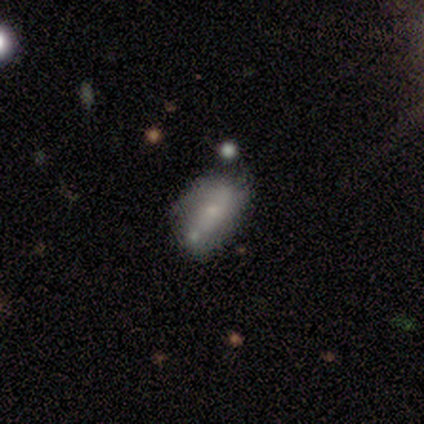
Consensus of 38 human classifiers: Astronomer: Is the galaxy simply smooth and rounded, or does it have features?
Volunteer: featured or disk — 47% (runner-up: smooth, 45%).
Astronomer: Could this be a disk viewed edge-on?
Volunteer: no — 89%.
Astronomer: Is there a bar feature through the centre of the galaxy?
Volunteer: no — 94%.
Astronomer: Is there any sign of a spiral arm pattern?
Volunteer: no — 62%.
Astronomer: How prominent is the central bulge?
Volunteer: small — 69%.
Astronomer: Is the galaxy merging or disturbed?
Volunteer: none — 60%.